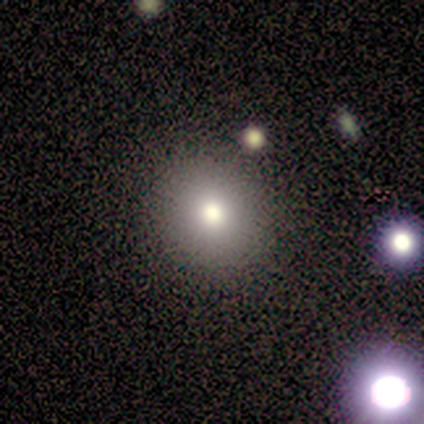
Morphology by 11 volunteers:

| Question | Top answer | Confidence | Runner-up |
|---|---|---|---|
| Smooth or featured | smooth | 91% | featured or disk (9%) |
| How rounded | round | 70% | in between (30%) |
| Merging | none | 82% | minor disturbance (9%) |